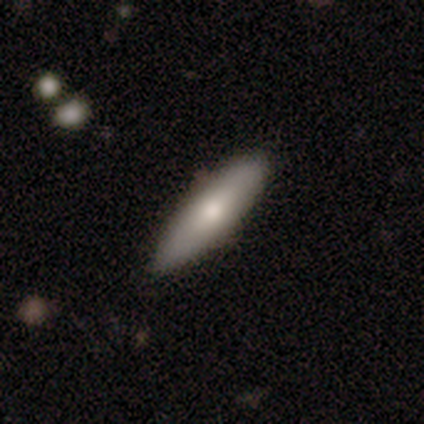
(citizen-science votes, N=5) Morphology: type=smooth (60%); roundness=cigar-shaped (67%); merging=none (80%).